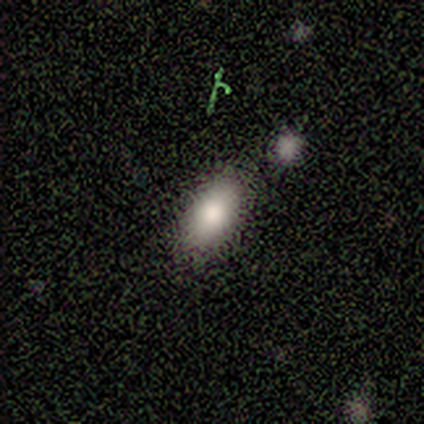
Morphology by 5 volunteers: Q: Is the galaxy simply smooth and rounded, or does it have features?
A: smooth — 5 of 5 (100%).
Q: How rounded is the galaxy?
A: in between — 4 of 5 (80%).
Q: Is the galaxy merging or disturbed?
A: none — 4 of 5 (80%).